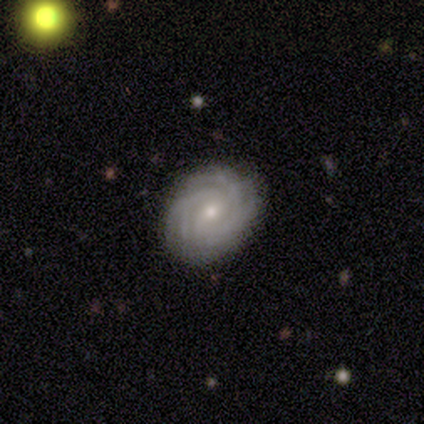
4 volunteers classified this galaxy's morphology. Smooth or featured? featured or disk (75%)
Edge-on disk? no (100%)
Bar? no (67%)
Spiral arms? yes (100%)
Spiral winding? tight (100%)
Spiral arm count? 4 (67%)
Bulge size? moderate (67%)
Merging? none (50%)